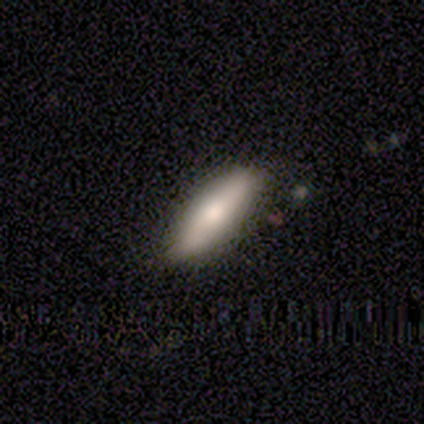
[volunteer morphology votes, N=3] Consensus on every question: smooth or featured — smooth (100%); how rounded — cigar-shaped (100%); merging — none (100%).